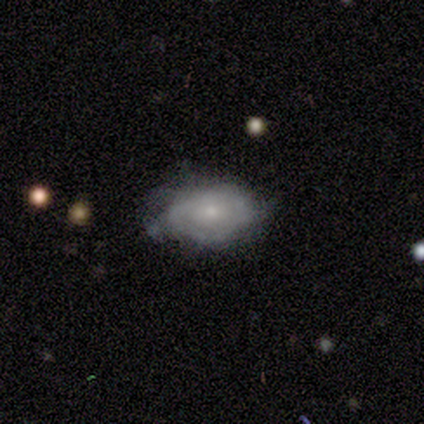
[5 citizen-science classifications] Overall: featured or disk (60%; smooth 40%). Edge-on disk: no (100%). Bar: no (100%). Spiral arms: no (100%). Bulge size: small (67%; moderate 33%). Merging: minor disturbance (60%; none 40%).